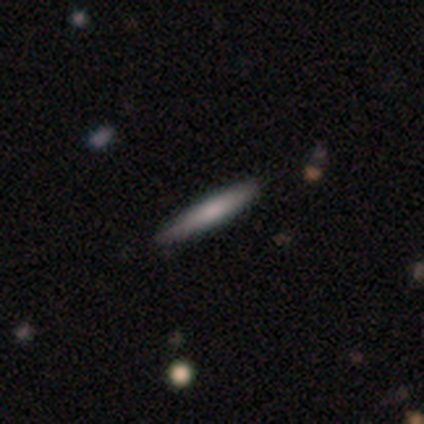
A smooth galaxy with no disk features (60%) that is cigar-shaped (100%).

Vote fractions:
- Smooth or featured? smooth: 60% / featured or disk: 20% / star or artifact: 20%
- How rounded? cigar-shaped: 100% / round: 0% / in between: 0%
- Merging? none: 75% / minor disturbance: 25% / major disturbance: 0% / merger: 0%